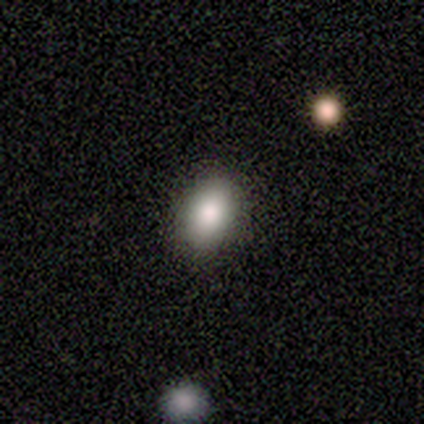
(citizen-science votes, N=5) Consensus on every question: smooth or featured — smooth (100%); how rounded — in between (100%); merging — none (100%).